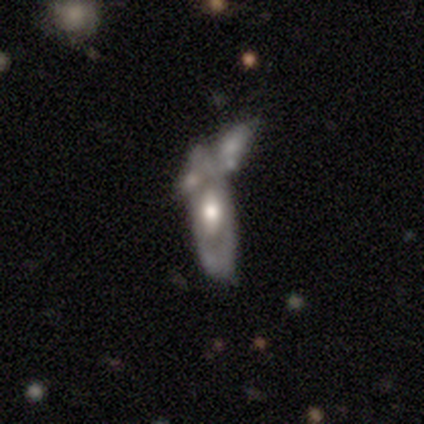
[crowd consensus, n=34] A featured or disk galaxy (65%) with no bar (95%), no spiral arms (79%) and a moderate central bulge (63%).

Vote fractions:
- Smooth or featured? featured or disk: 65% / smooth: 35% / star or artifact: 0%
- Edge-on disk? no: 86% / yes: 14%
- Bar? no: 95% / weak: 5% / strong: 0%
- Spiral arms? no: 79% / yes: 21%
- Bulge size? moderate: 63% / large: 26% / dominant: 5% / none: 5% / small: 0%
- Merging? merger: 50% / none: 0% / minor disturbance: 0% / major disturbance: 0%